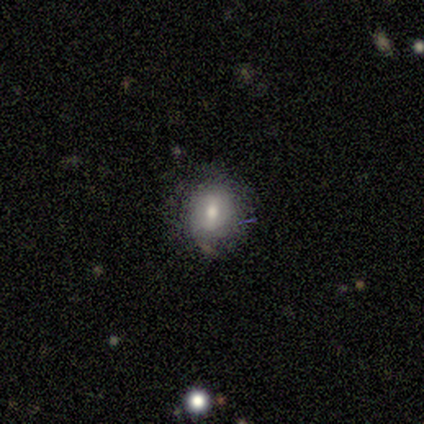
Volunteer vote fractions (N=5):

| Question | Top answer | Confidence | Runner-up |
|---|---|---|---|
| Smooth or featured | smooth | 100% | — |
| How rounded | round | 80% | in between (20%) |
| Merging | minor disturbance | 60% | none (40%) |